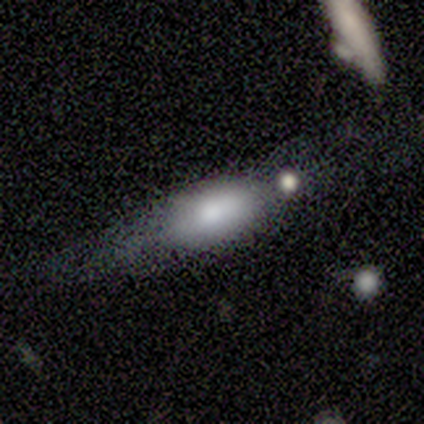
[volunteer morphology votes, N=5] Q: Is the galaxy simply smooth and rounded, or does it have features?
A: smooth — 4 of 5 (80%).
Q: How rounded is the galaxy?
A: in between — 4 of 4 (100%).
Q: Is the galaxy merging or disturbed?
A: none — 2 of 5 (40%, tied with merger).